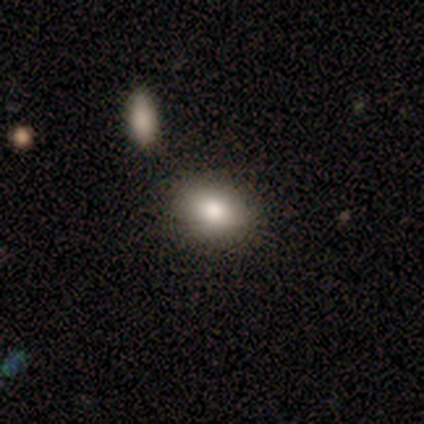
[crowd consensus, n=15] Volunteers were most divided on "how rounded": in between: 80%, round: 20%, cigar-shaped: 0%. More confident: smooth or featured — smooth (100%); merging — none (100%).